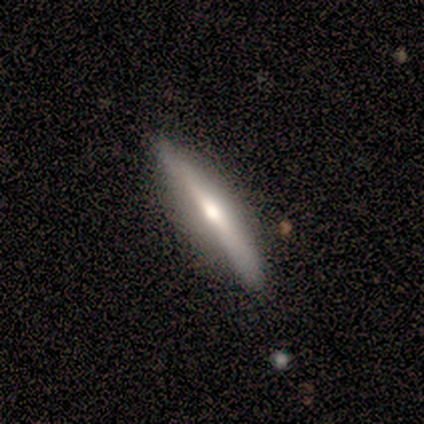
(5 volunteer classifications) Smooth or featured?
  - smooth: 60% *
  - featured or disk: 40%
  - star or artifact: 0%
How rounded?
  - cigar-shaped: 100% *
  - round: 0%
  - in between: 0%
Merging?
  - none: 100% *
  - minor disturbance: 0%
  - major disturbance: 0%
  - merger: 0%